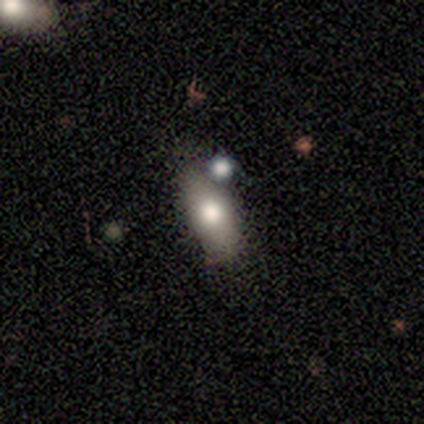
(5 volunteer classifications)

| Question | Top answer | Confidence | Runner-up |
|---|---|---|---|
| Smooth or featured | smooth | 100% | — |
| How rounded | in between | 60% | round (20%) |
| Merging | none | 100% | — |